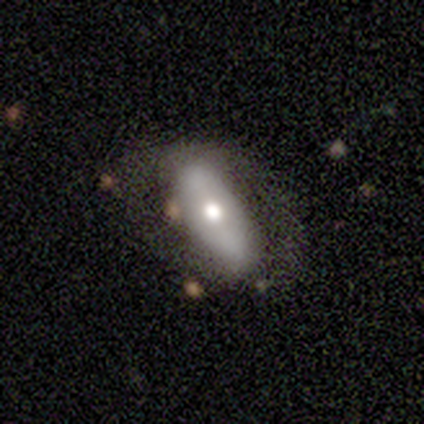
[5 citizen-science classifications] featured or disk 60%, smooth 20%, star or artifact 20%. Down the decision tree: edge-on disk — no (100%); bar — no (67%); spiral arms — no (67%); bulge size — moderate (67%); merging — none (75%).